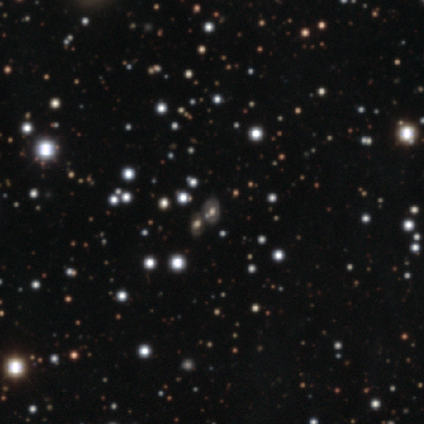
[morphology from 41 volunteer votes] smooth-or-featured: star or artifact: 59% | smooth: 24% | featured or disk: 17%